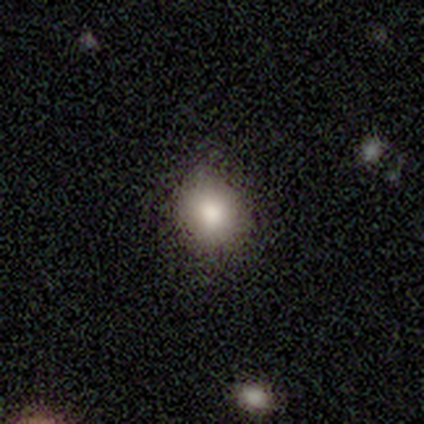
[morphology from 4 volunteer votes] A smooth galaxy with no disk features (100%) that is round (75%). Merging: none (100%).